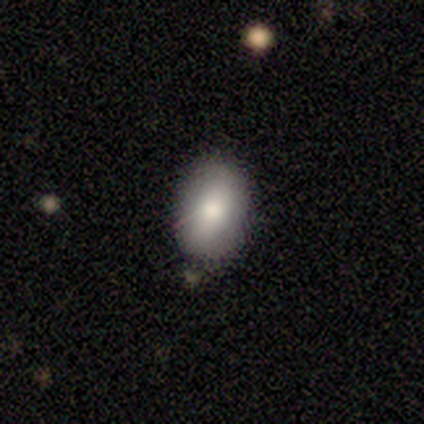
Overall: smooth (60%; featured or disk 40%). How rounded: in between (100%). Merging: none (80%).